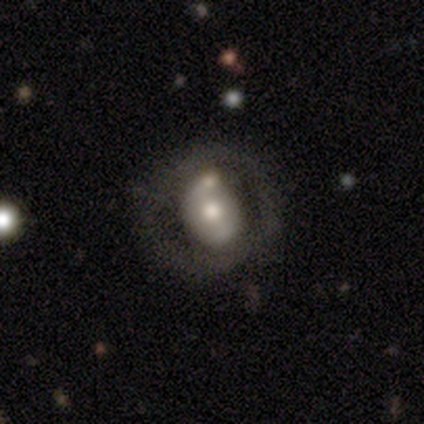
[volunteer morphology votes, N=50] Smooth or featured? featured or disk (72%)
Edge-on disk? no (100%)
Bar? no (69%)
Spiral arms? no (53%)
Bulge size? moderate (67%)
Merging? none (55%)